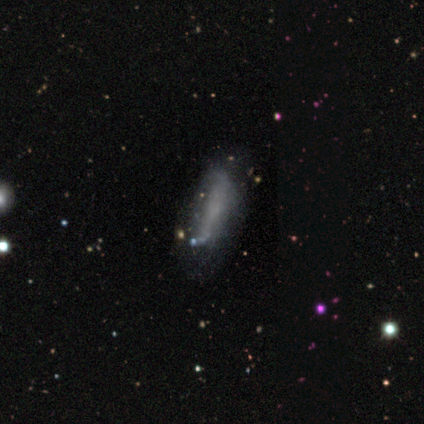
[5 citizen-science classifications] This is clearly a smooth galaxy (100%). How rounded: clearly in between (80%). Merging: likely minor disturbance (60%).